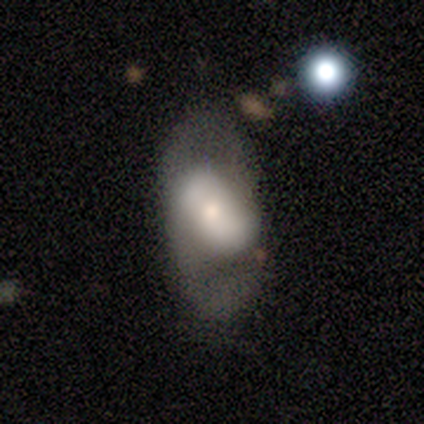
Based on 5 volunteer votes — Smooth or featured: smooth — 40% (tied with featured or disk — 40%)
How rounded: in between — 100%
Merging: none — 50% (minor disturbance — 25%)